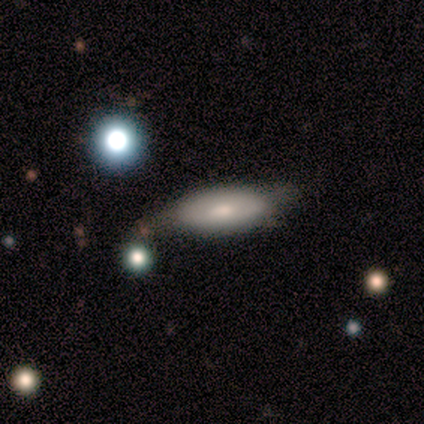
Overall: smooth (60%; featured or disk 40%). How rounded: in between (67%; cigar-shaped 33%). Merging: minor disturbance (100%).